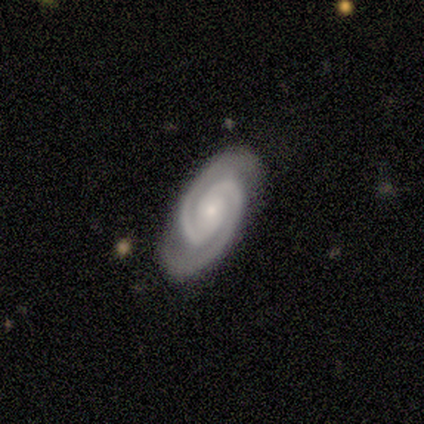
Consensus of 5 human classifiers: Overall: featured or disk (100%). Edge-on disk: no (100%). Bar: no (100%). Spiral arms: yes (100%). Spiral arm count: 2 (100%). Spiral winding: medium (60%; tight 40%). Bulge size: moderate (40%, tied with small). Merging: none (100%).